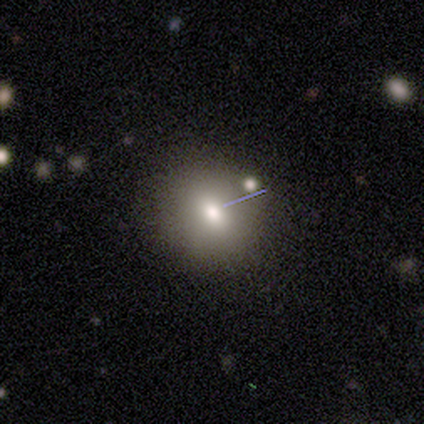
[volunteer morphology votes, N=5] Smooth or featured? smooth (60%)
How rounded? round (100%)
Merging? none (100%)